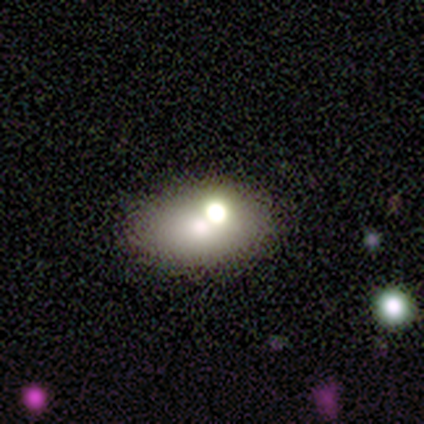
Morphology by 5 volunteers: type=smooth (40%, tied with featured or disk); roundness=in between (100%); merging=none (50%, tied with merger).